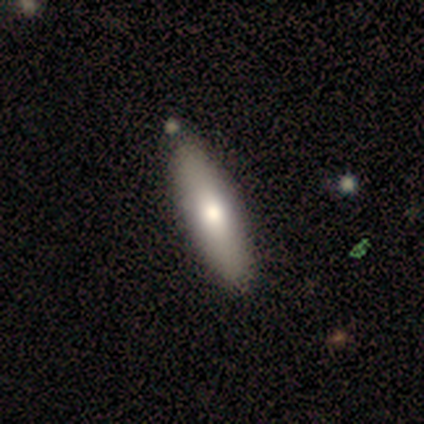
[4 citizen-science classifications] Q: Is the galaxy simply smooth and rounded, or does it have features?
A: smooth — 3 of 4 (75%).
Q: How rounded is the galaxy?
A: cigar-shaped — 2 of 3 (67%).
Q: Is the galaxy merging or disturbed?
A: none — 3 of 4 (75%).